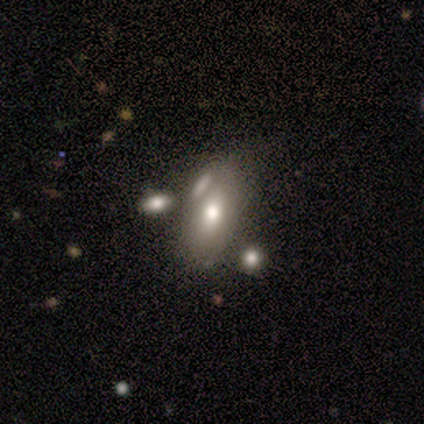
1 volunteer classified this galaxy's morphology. This appears to be a featured or disk galaxy (100%) with a weak bar (100%), no spiral arms (100%) and a moderate central bulge (100%). Merging: major disturbance (100%).